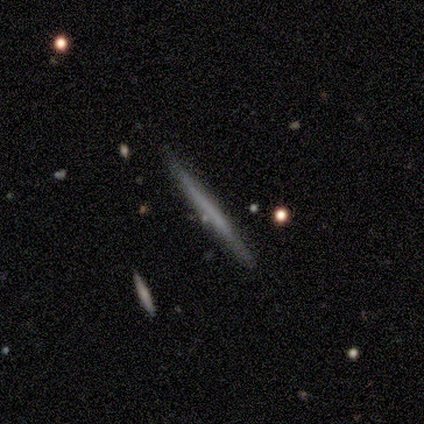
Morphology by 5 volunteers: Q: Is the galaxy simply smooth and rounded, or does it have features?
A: featured or disk — 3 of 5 (60%).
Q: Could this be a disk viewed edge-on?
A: yes — 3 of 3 (100%).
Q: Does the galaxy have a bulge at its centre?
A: none — 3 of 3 (100%).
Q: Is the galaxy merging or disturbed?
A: none — 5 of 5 (100%).